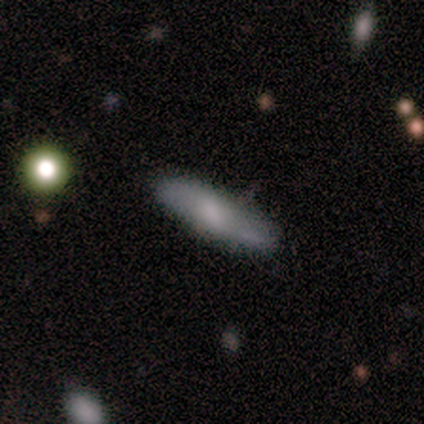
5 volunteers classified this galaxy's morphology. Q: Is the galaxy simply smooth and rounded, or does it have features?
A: smooth — 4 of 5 (80%).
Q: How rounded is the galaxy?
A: cigar-shaped — 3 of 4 (75%).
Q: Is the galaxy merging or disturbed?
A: none — 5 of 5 (100%).